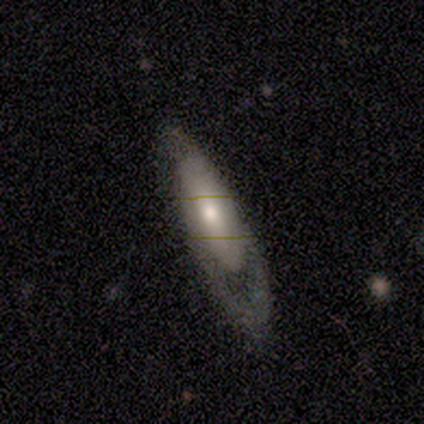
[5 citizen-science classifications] This is likely a smooth galaxy (60%). How rounded: likely cigar-shaped (67%). Merging: marginally minor disturbance (40%, tied with major disturbance).